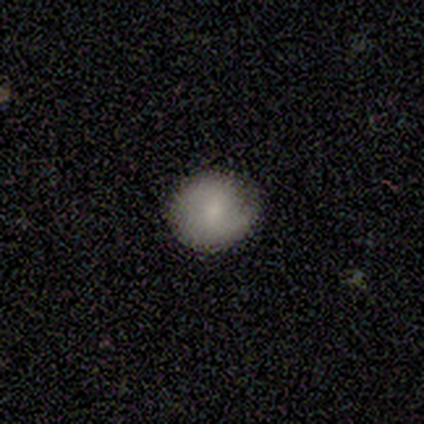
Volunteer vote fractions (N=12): This appears to be a smooth galaxy with no disk features (75%) that is round (78%). Merging: none (73%).